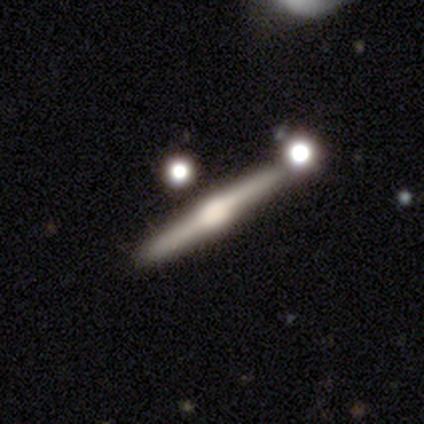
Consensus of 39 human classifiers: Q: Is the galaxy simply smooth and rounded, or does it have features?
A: featured or disk — 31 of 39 (79%).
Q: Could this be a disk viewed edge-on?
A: yes — 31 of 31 (100%).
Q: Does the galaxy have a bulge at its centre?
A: rounded — 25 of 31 (81%).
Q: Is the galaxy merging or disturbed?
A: none — 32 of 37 (86%).